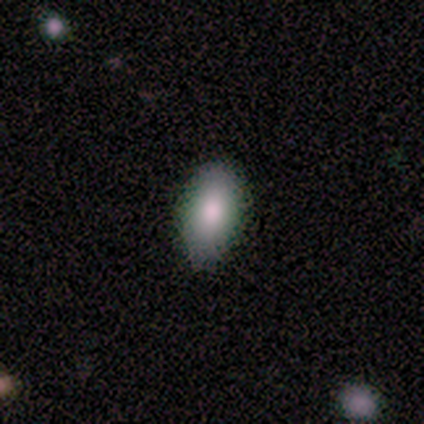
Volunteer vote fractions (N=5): A smooth galaxy with no disk features (60%) that is in between round and cigar-shaped (100%).

Vote fractions:
- Smooth or featured? smooth: 60% / star or artifact: 40% / featured or disk: 0%
- How rounded? in between: 100% / round: 0% / cigar-shaped: 0%
- Merging? none: 100% / minor disturbance: 0% / major disturbance: 0% / merger: 0%